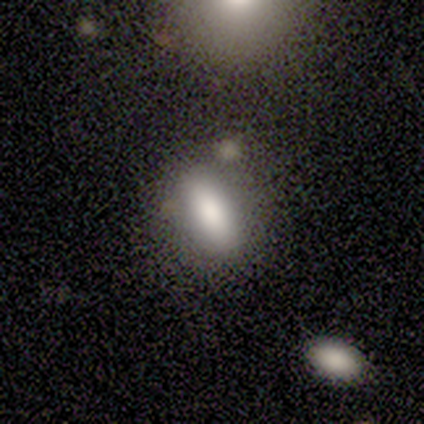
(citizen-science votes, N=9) Smooth or featured? 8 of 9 (89%) said smooth. How rounded? 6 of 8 (75%) said in between. Merging? 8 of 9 (89%) said none.